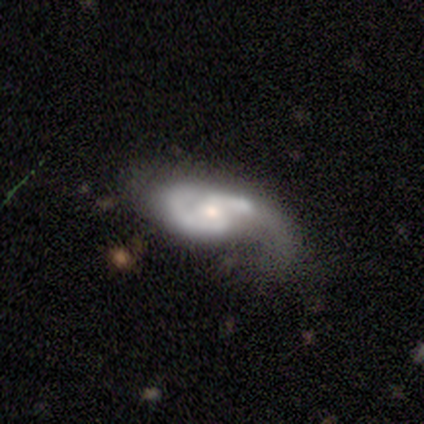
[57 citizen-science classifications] This is likely a featured or disk galaxy (75%). It is clearly not viewed edge-on (88%). Bar: possibly weak (50%). Spiral arm pattern: clearly yes (95%). Spiral arm count: likely 2 (69%). Spiral winding: marginally medium (42%). Central bulge: likely moderate (66%). Merging: marginally minor disturbance (32%).